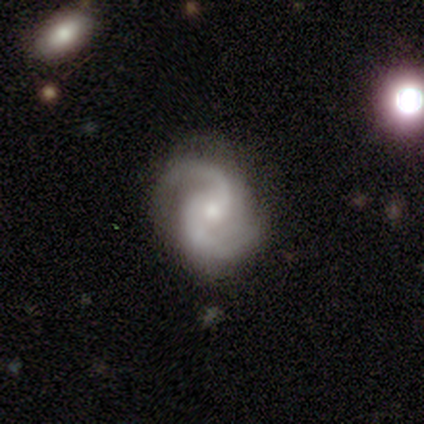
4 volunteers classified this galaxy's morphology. Smooth or featured? featured or disk (100%)
Edge-on disk? no (100%)
Bar? no (100%)
Spiral arms? yes (100%)
Spiral winding? medium (100%)
Spiral arm count? 2 (100%)
Bulge size? moderate (50%, tied with small)
Merging? none (75%)